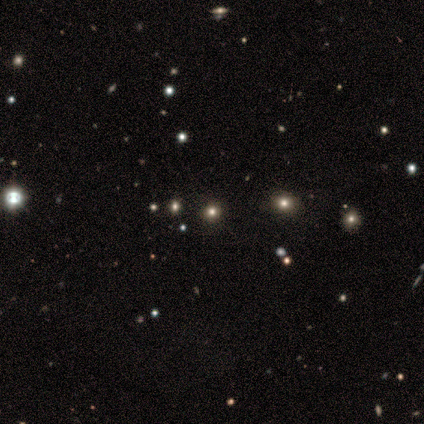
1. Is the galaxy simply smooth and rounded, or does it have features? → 60% smooth, 40% star or artifact, 0% featured or disk.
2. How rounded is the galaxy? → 67% round, 33% in between, 0% cigar-shaped.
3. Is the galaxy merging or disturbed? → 67% none, 33% minor disturbance, 0% major disturbance, 0% merger.